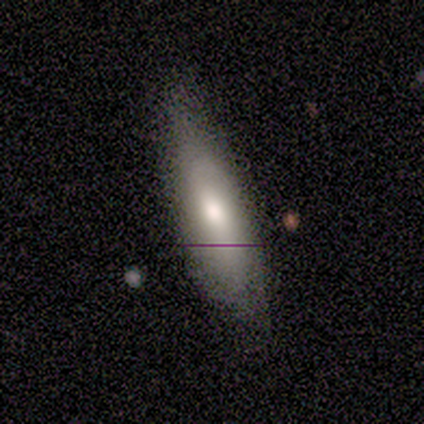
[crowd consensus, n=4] Smooth or featured? 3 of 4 (75%) said smooth. How rounded? 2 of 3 (67%) said in between. Merging? 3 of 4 (75%) said none.